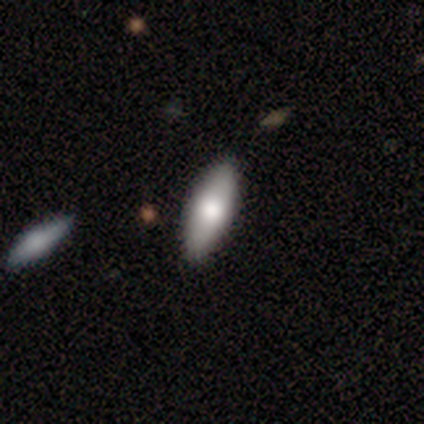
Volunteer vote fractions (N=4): smooth 100%, featured or disk 0%, star or artifact 0%. Down the decision tree: how rounded — in between (50%, tied with cigar-shaped); merging — none (100%).